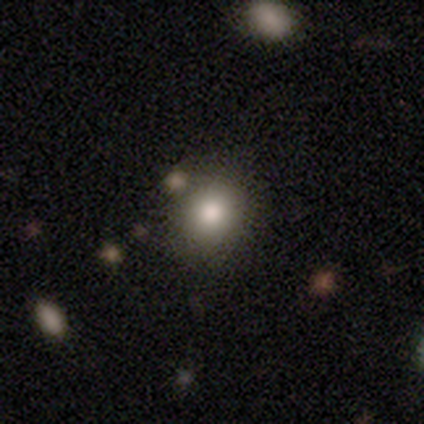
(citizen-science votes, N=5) Smooth or featured: smooth — 80% (star or artifact — 20%)
How rounded: round — 100%
Merging: none — 100%